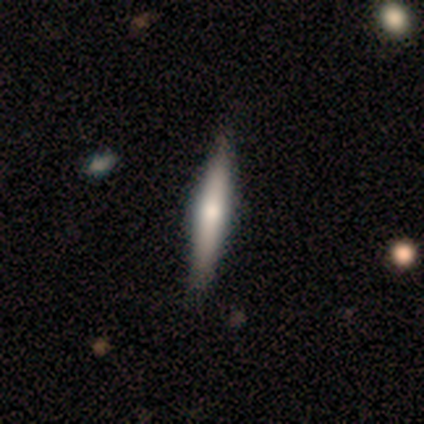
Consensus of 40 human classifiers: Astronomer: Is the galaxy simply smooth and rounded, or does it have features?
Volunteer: featured or disk — 60% (runner-up: smooth, 38%).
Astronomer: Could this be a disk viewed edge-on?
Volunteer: yes — 96%.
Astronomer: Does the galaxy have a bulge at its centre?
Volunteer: rounded — 78%.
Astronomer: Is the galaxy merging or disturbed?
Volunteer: none — 62%.